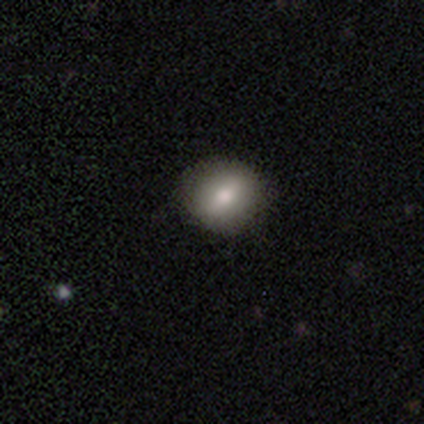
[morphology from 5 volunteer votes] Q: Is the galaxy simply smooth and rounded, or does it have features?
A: smooth — 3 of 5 (60%).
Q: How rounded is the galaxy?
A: in between — 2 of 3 (67%).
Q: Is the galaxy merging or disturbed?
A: none — 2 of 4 (50%, tied with minor disturbance).